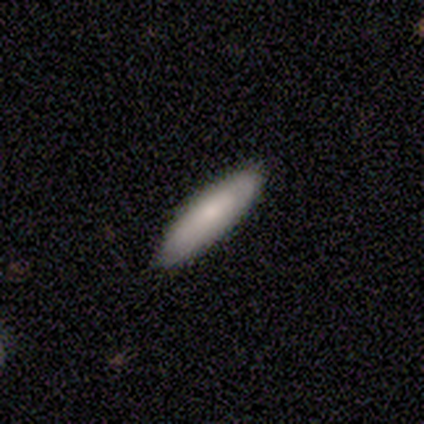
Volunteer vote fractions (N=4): This is clearly a smooth galaxy (100%). How rounded: clearly cigar-shaped (100%). Merging: likely none (75%).